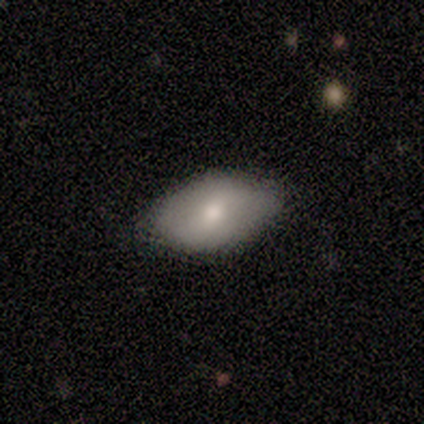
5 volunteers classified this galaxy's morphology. Smooth or featured? 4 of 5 (80%) said smooth. How rounded? 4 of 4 (100%) said in between. Merging? 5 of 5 (100%) said none.